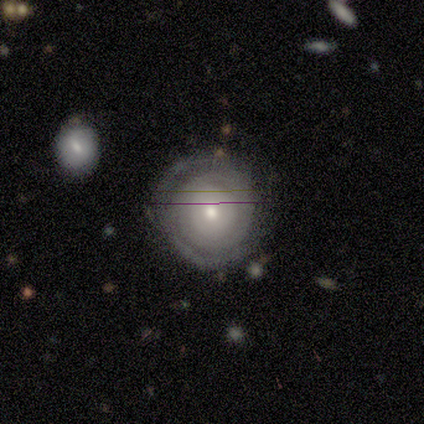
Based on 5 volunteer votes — Volunteers were most divided on "smooth or featured" (2-way tie): smooth: 40%, featured or disk: 40%, star or artifact: 20%; "merging" (2-way tie): none: 50%, major disturbance: 50%, minor disturbance: 0%, merger: 0%. More confident: how rounded — round (100%).